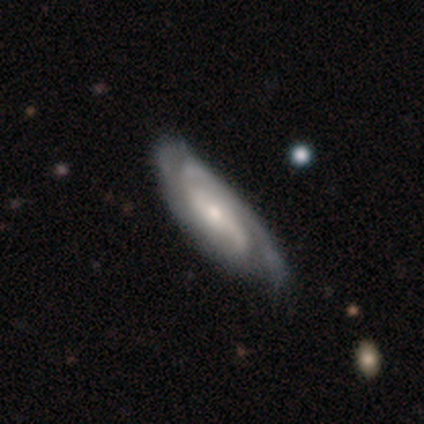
Volunteers were most divided on "merging" (2-way tie): none: 50%, minor disturbance: 50%, major disturbance: 0%, merger: 0%. More confident: edge-on disk — no (100%); spiral arms — yes (100%); spiral arm count — 2 (100%); bar — no (67%); spiral winding — medium (67%); bulge size — moderate (67%); smooth or featured — featured or disk (60%).